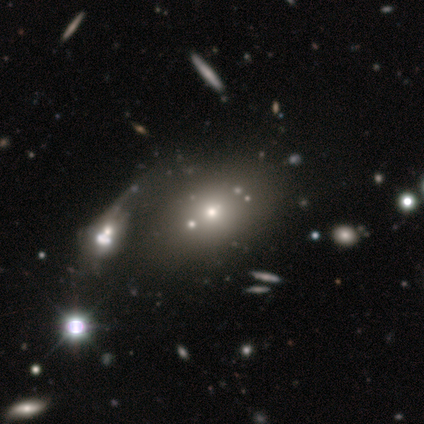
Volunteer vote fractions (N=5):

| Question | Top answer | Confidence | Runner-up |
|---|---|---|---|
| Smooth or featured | smooth | 100% | — |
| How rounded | in between | 80% | cigar-shaped (20%) |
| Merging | none | 60% | major disturbance (20%) |